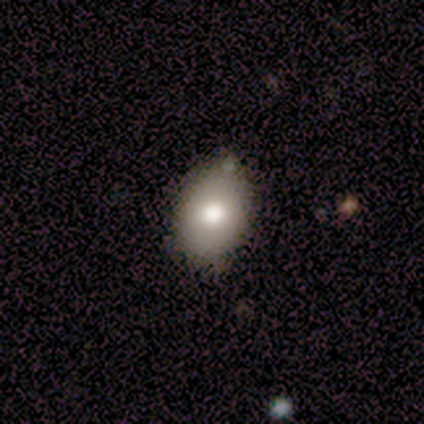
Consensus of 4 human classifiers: smooth_or_featured: smooth (p=1.00)
how_rounded: in between (p=0.75) [alt: round p=0.25]
merging: minor disturbance (p=0.50) [alt: none p=0.25]